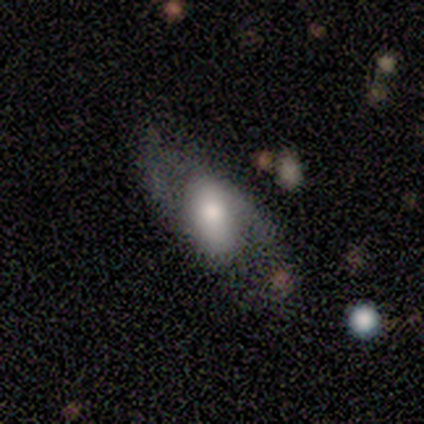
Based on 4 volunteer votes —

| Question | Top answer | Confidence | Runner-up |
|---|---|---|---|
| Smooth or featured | featured or disk | 75% | smooth (25%) |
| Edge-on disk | no | 100% | — |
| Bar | weak | 67% | no (33%) |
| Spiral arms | yes | 67% | no (33%) |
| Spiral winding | loose | 100% | — |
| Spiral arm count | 2 | 100% | — |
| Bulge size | large | 33% | tied: moderate (33%), small (33%) |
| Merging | none | 50% | minor disturbance (25%) |